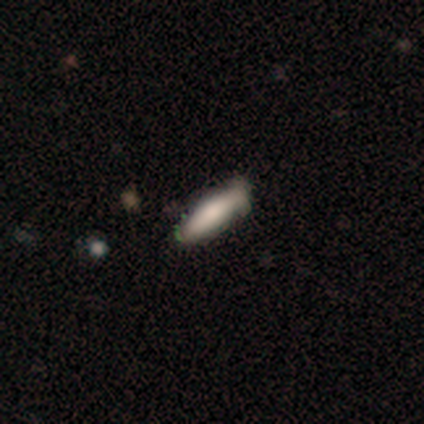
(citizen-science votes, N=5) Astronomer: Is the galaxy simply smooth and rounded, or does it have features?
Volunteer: smooth — 80%.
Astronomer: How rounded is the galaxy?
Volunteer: in between — 50%, tied with cigar-shaped at 50%.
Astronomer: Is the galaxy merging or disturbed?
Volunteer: none — 50%, tied with minor disturbance at 50%.